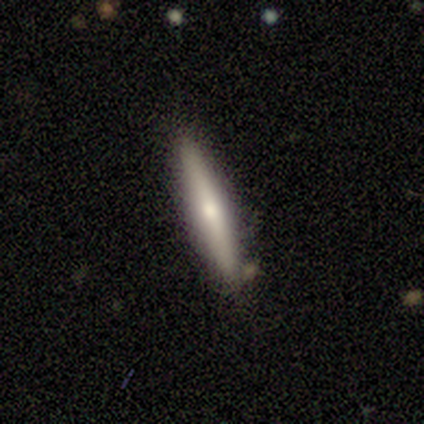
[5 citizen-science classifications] smooth-or-featured: smooth: 60% | featured or disk: 40% | star or artifact: 0%
  how-rounded: cigar-shaped: 100% | round: 0% | in between: 0%
  merging: none: 100% | minor disturbance: 0% | major disturbance: 0% | merger: 0%